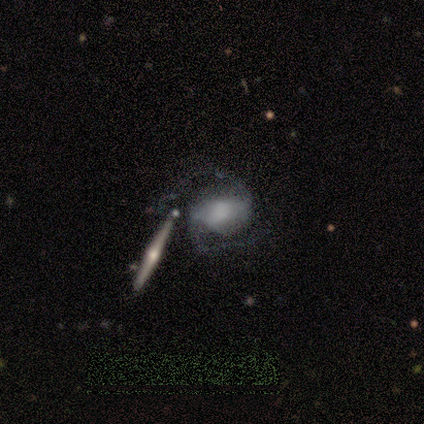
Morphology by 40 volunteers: Smooth or featured? 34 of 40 (85%) said featured or disk. Edge-on disk? 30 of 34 (88%) said no. Bar? 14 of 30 (47%) said strong. Spiral arms? 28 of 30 (93%) said yes. Spiral winding? 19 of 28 (68%) said medium. Spiral arm count? 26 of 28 (93%) said 2. Bulge size? 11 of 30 (37%) said large. Merging? 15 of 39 (38%) said none.